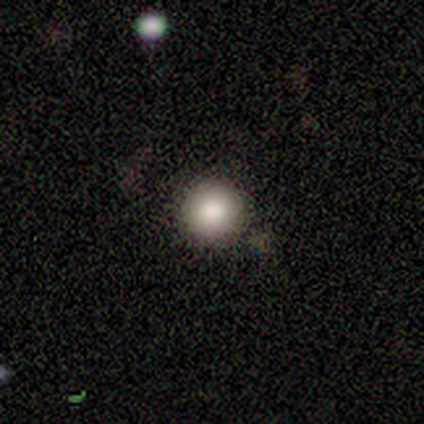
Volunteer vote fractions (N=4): Smooth or featured? smooth (75%)
How rounded? round (100%)
Merging? none (100%)